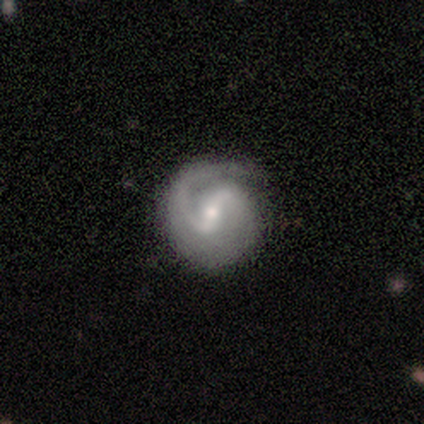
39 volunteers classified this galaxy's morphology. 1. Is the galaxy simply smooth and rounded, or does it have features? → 85% featured or disk, 15% smooth, 0% star or artifact.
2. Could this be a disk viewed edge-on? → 97% no, 3% yes.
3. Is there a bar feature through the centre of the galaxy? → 41% weak, 31% strong, 28% no.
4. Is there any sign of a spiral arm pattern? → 97% yes, 3% no.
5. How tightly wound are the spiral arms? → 42% tight, 39% medium, 19% loose.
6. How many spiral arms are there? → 84% 2, 16% 1, 0% 3, 0% 4, 0% more than 4, 0% can't tell.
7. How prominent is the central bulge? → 56% moderate, 41% small, 3% dominant, 0% large, 0% none.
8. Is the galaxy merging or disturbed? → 62% none, 26% minor disturbance, 13% major disturbance, 0% merger.